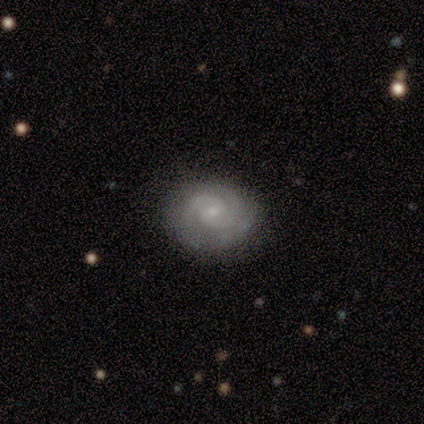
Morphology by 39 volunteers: Q: Smooth or featured?
A: featured or disk (79%); runner-up: smooth (13%)
Q: Edge-on disk?
A: no (97%); runner-up: yes (3%)
Q: Bar?
A: no (77%); runner-up: weak (23%)
Q: Spiral arms?
A: yes (100%)
Q: Spiral winding?
A: tight (57%); runner-up: medium (40%)
Q: Spiral arm count?
A: 2 (80%); runner-up: 3 (17%)
Q: Bulge size?
A: small (83%); runner-up: moderate (10%)
Q: Merging?
A: none (83%); runner-up: minor disturbance (11%)